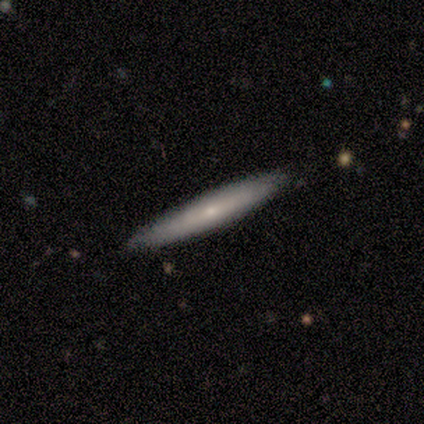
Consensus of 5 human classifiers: Smooth or featured? smooth (80%)
How rounded? cigar-shaped (75%)
Merging? none (100%)